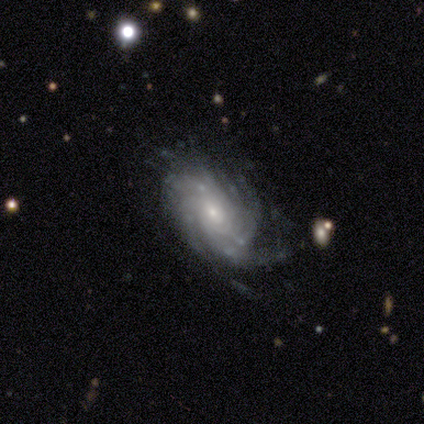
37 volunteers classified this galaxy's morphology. smooth-or-featured: featured or disk: 92% | smooth: 5% | star or artifact: 3%
  disk-edge-on: no: 88% | yes: 12%
    bar: no: 80% | weak: 20% | strong: 0%
    has-spiral-arms: yes: 97% | no: 3%
      spiral-winding: tight: 69% | loose: 17% | medium: 14%
      spiral-arm-count: more than 4: 55% | can't tell: 31% | 4: 7% | 2: 3% | 3: 3% | 1: 0%
    bulge-size: small: 73% | moderate: 27% | dominant: 0% | large: 0% | none: 0%
  merging: none: 69% | minor disturbance: 14% | major disturbance: 14% | merger: 3%